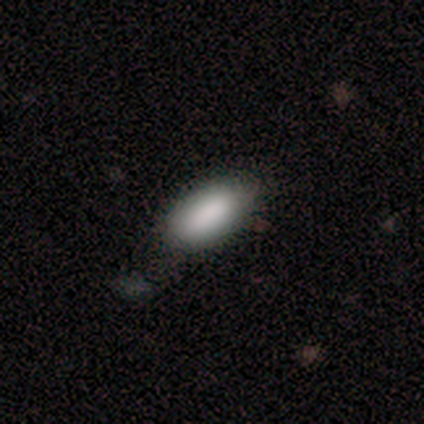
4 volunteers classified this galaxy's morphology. Smooth or featured? smooth (100%)
How rounded? in between (100%)
Merging? none (75%)